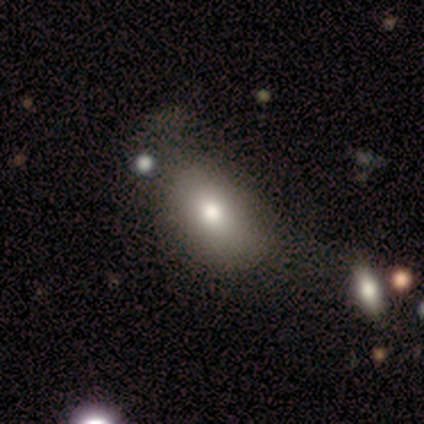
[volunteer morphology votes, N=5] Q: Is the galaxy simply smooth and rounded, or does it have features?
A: smooth — 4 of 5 (80%).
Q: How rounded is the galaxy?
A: in between — 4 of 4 (100%).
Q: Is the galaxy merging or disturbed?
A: none — 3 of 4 (75%).